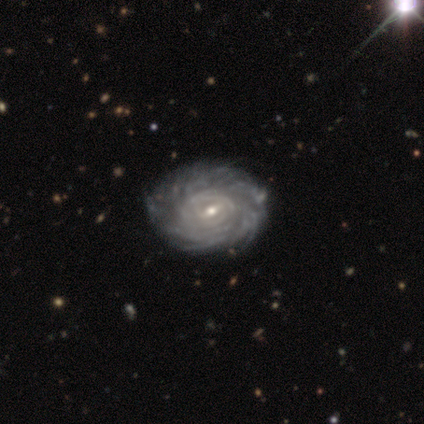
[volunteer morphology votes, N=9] Overall: featured or disk (78%). Edge-on disk: no (100%). Bar: weak (71%). Spiral arms: yes (100%). Spiral arm count: more than 4 (43%, tied with can't tell). Spiral winding: tight (86%). Bulge size: small (71%). Merging: none (86%).